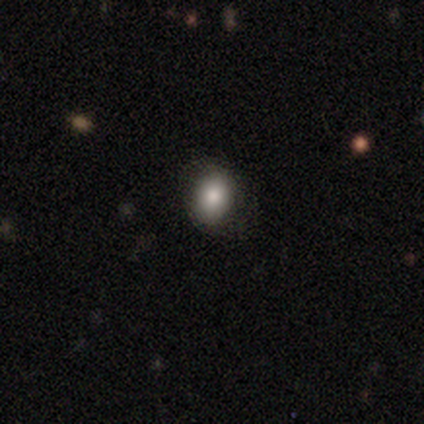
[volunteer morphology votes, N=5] Q: Smooth or featured?
A: smooth (100%)
Q: How rounded?
A: in between (80%); runner-up: round (20%)
Q: Merging?
A: none (100%)